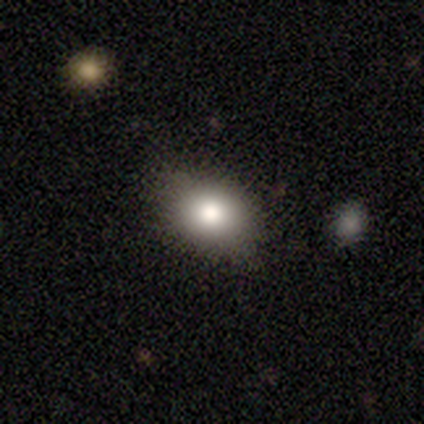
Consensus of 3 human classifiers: This is likely a smooth galaxy (67%). How rounded: clearly in between (100%). Merging: clearly none (100%).